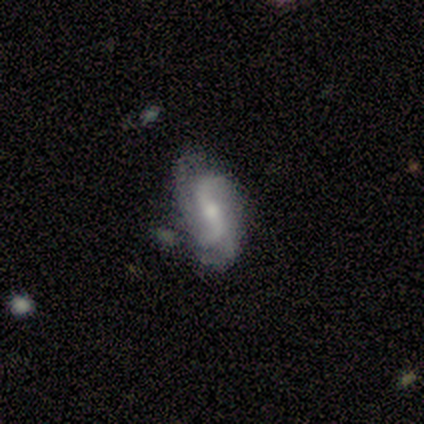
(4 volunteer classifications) Morphology: type=featured or disk (100%); edge-on=no (100%); bar=strong (75%); spiral arms=yes (100%); winding=loose (50%); arm count=2 (50%, tied with 3); bulge=moderate (75%); merging=none (75%).